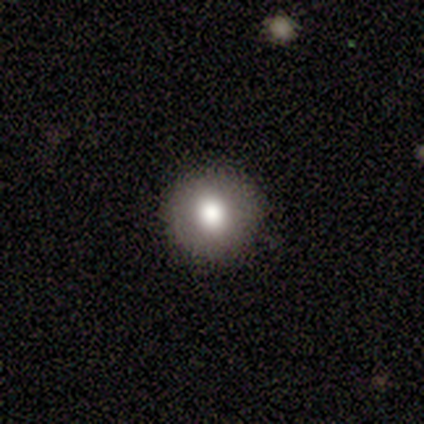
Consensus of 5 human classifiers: This appears to be a smooth galaxy with no disk features (80%) that is round (100%). Merging: none (100%).